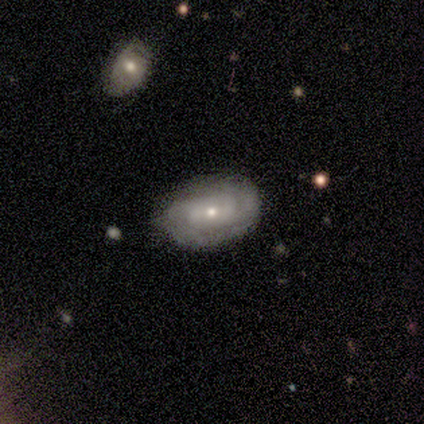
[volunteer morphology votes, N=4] type=featured or disk (75%); edge-on=no (100%); bar=no (67%); spiral arms=yes (100%); winding=medium (67%); arm count=2 (67%); bulge=small (100%); merging=none (50%, tied with minor disturbance).